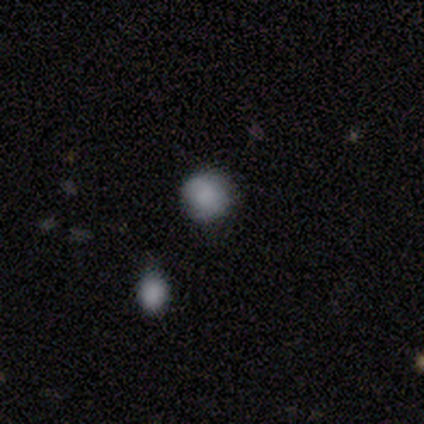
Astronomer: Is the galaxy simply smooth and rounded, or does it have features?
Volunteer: smooth — 80%.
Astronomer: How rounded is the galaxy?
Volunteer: round — 100%.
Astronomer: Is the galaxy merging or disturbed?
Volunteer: none — 100%.